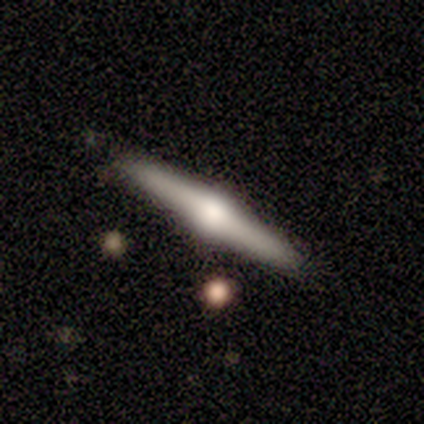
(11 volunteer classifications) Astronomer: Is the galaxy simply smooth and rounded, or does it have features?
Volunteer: featured or disk — 100%.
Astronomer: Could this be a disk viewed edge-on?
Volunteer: yes — 100%.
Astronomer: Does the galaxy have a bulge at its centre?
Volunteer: rounded — 100%.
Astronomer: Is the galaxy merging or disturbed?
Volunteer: none — 82%.